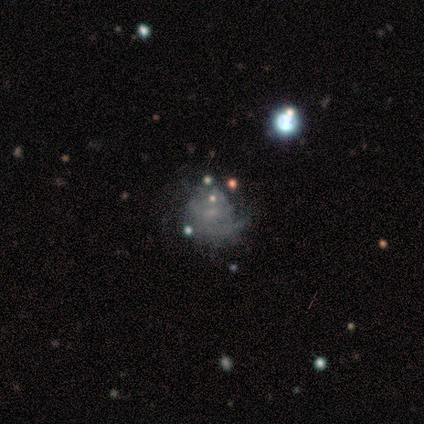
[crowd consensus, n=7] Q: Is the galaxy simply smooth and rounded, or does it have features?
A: featured or disk — 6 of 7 (86%).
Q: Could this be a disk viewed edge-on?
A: no — 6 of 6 (100%).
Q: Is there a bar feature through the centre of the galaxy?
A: no — 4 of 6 (67%).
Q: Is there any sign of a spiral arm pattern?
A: yes — 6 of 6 (100%).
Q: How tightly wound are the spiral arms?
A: tight — 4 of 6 (67%).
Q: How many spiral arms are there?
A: can't tell — 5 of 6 (83%).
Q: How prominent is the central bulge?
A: small — 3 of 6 (50%, tied with none).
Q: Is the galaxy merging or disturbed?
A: major disturbance — 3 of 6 (50%).